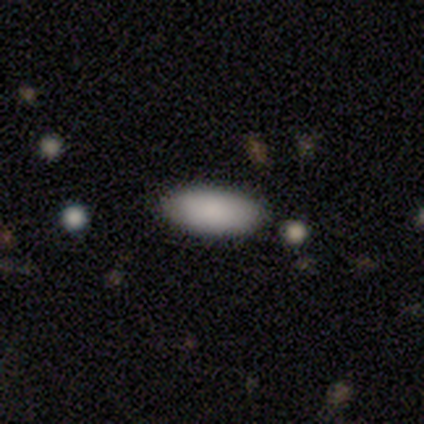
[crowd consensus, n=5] Smooth or featured?
  - smooth: 80% *
  - star or artifact: 20%
  - featured or disk: 0%
How rounded?
  - in between: 75% *
  - cigar-shaped: 25%
  - round: 0%
Merging?
  - none: 100% *
  - minor disturbance: 0%
  - major disturbance: 0%
  - merger: 0%